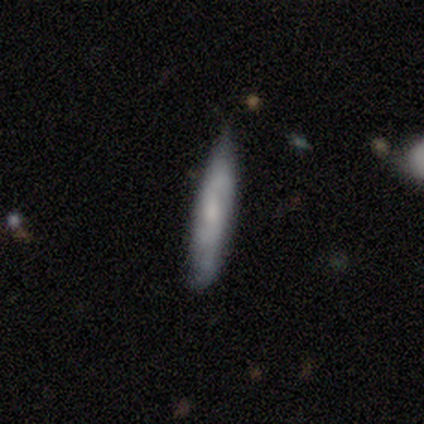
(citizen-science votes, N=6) This appears to be a smooth galaxy with no disk features (67%) that is cigar-shaped (100%). Merging: none (67%).